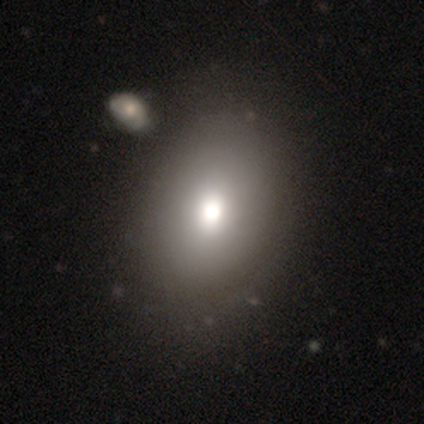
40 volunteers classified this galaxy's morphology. Volunteers were most divided on "how rounded": in between: 55%, round: 45%, cigar-shaped: 0%. More confident: smooth or featured — smooth (72%); merging — none (64%).